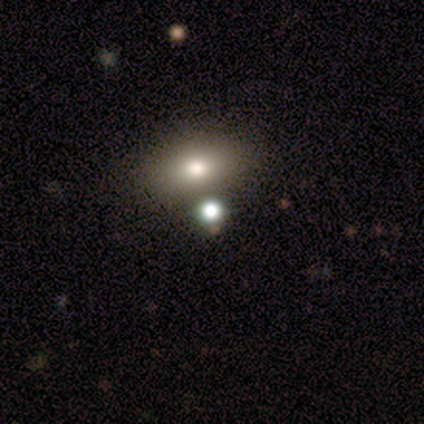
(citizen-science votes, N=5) Volunteers were most divided on "how rounded" (2-way tie): round: 50%, in between: 50%, cigar-shaped: 0%. More confident: smooth or featured — smooth (80%); merging — none (75%).